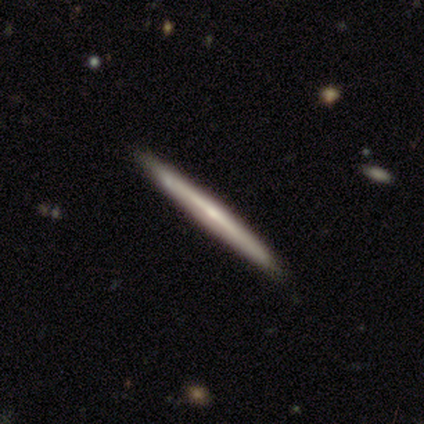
This is clearly a featured or disk galaxy (89%). It is clearly viewed edge-on (100%). Edge-on bulge: clearly none (88%). Merging: clearly none (89%).